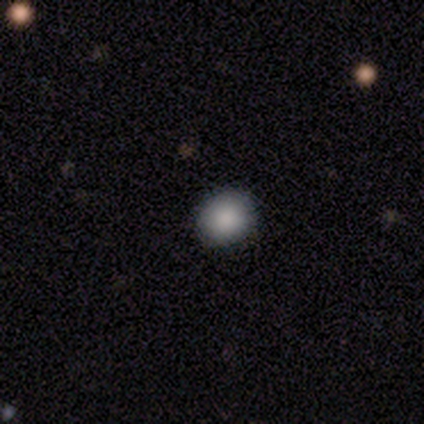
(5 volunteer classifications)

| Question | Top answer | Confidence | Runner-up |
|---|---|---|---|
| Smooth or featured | smooth | 40% | tied: star or artifact (40%) |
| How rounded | round | 100% | — |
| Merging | none | 100% | — |